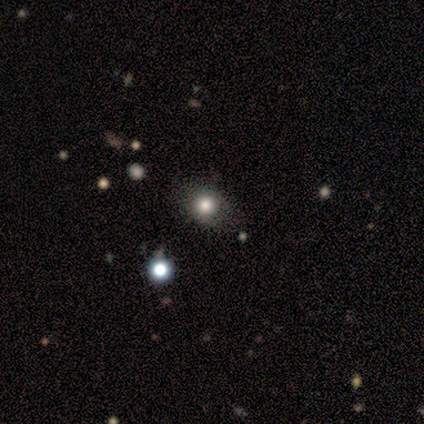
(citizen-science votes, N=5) Q: Smooth or featured?
A: smooth (80%); runner-up: featured or disk (20%)
Q: How rounded?
A: round (50%); tied with: in between (50%)
Q: Merging?
A: none (80%); runner-up: merger (20%)